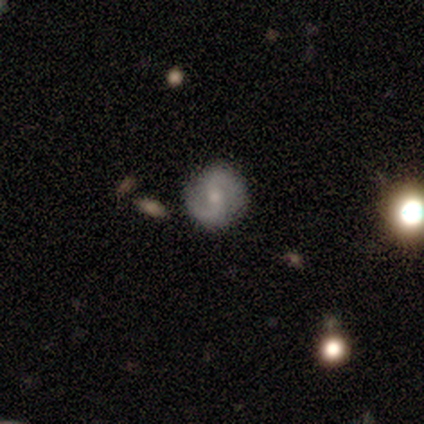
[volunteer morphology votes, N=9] This appears to be a featured or disk galaxy (78%) with no bar (57%), 2 (100%) medium (50%) spiral arms (86%) and a moderate central bulge (57%). Merging: none (71%).